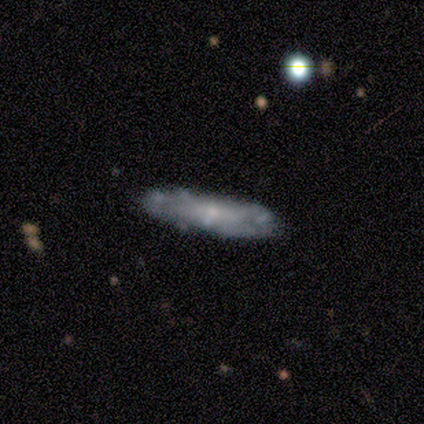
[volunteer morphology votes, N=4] Smooth or featured: featured or disk — 75% (smooth — 25%)
Edge-on disk: no — 67% (yes — 33%)
Bar: no — 100%
Spiral arms: yes — 50% (tied with no — 50%)
Spiral winding: tight — 100%
Spiral arm count: 2 — 100%
Bulge size: small — 100%
Merging: none — 100%